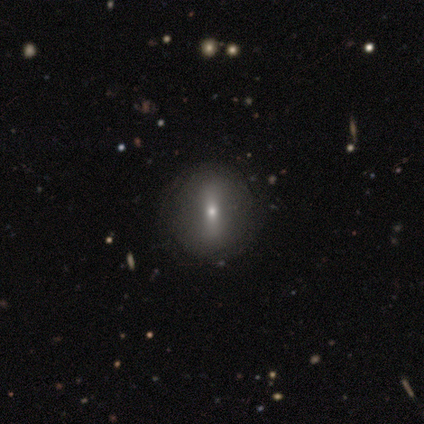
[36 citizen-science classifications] This is possibly a featured or disk galaxy (50%). It is clearly not viewed edge-on (89%). Bar: possibly strong (50%). Spiral arm pattern: clearly no (100%). Central bulge: likely small (62%). Merging: likely none (66%).